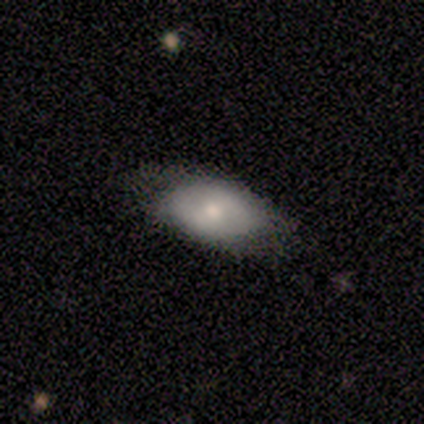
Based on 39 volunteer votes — This appears to be a smooth galaxy with no disk features (54%) that is in between round and cigar-shaped (100%). Merging: none (71%).